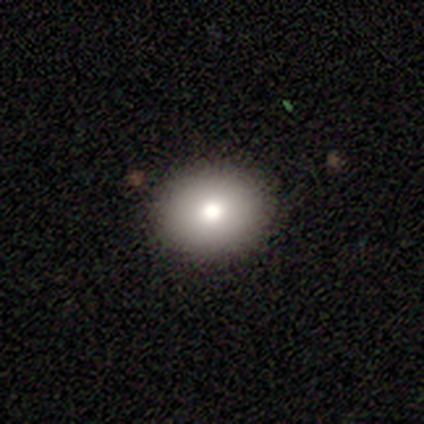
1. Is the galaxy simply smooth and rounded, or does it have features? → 80% smooth, 20% star or artifact, 0% featured or disk.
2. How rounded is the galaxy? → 75% round, 25% in between, 0% cigar-shaped.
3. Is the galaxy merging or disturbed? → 75% none, 25% major disturbance, 0% minor disturbance, 0% merger.